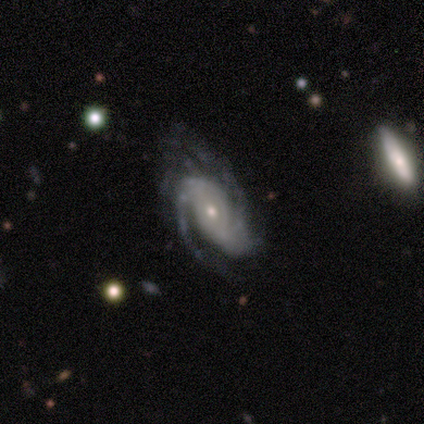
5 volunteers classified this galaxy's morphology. Smooth or featured?
  - featured or disk: 100% *
  - smooth: 0%
  - star or artifact: 0%
Edge-on disk?
  - no: 100% *
  - yes: 0%
Bar?
  - no: 60% *
  - weak: 40%
  - strong: 0%
Spiral arms?
  - yes: 100% *
  - no: 0%
Spiral winding?
  - tight: 40% * (tied)
  - medium: 40% * (tied)
  - loose: 20%
Spiral arm count?
  - 2: 80% *
  - can't tell: 20%
  - 1: 0%
  - 3: 0%
  - 4: 0%
  - more than 4: 0%
Bulge size?
  - small: 60% *
  - moderate: 40%
  - dominant: 0%
  - large: 0%
  - none: 0%
Merging?
  - none: 60% *
  - minor disturbance: 20%
  - major disturbance: 20%
  - merger: 0%